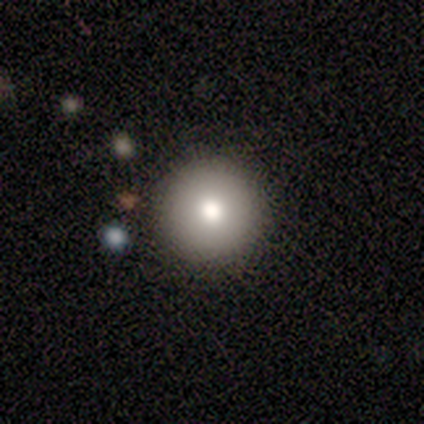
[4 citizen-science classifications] Smooth or featured? 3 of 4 (75%) said smooth. How rounded? 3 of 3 (100%) said round. Merging? 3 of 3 (100%) said none.